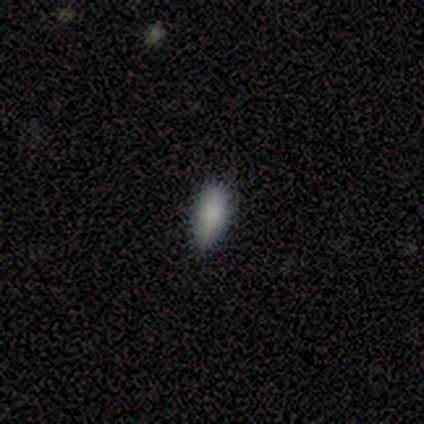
Smooth or featured?
  - smooth: 100% *
  - featured or disk: 0%
  - star or artifact: 0%
How rounded?
  - in between: 60% *
  - cigar-shaped: 40%
  - round: 0%
Merging?
  - none: 80% *
  - minor disturbance: 20%
  - major disturbance: 0%
  - merger: 0%